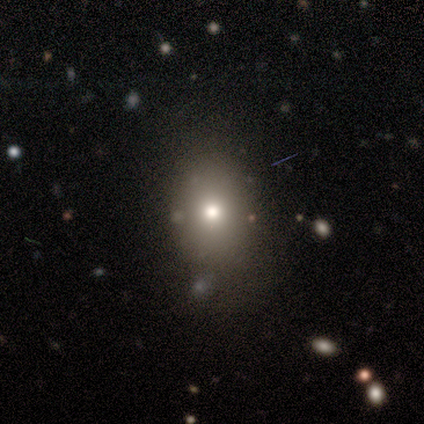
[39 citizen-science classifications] This is likely a smooth galaxy (64%). How rounded: likely round (64%). Merging: clearly none (81%).